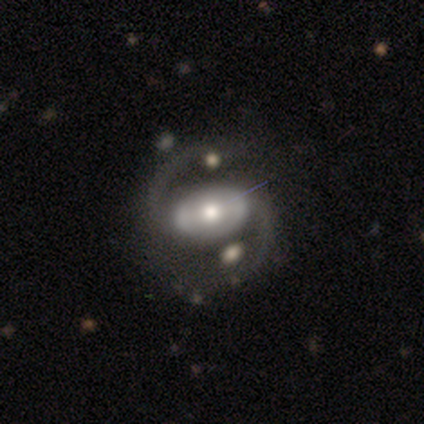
Smooth or featured? 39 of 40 (98%) said featured or disk. Edge-on disk? 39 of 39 (100%) said no. Bar? 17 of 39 (44%) said no. Spiral arms? 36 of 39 (92%) said yes. Spiral winding? 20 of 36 (56%) said medium. Spiral arm count? 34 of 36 (94%) said 2. Bulge size? 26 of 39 (67%) said moderate. Merging? 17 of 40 (42%) said none.